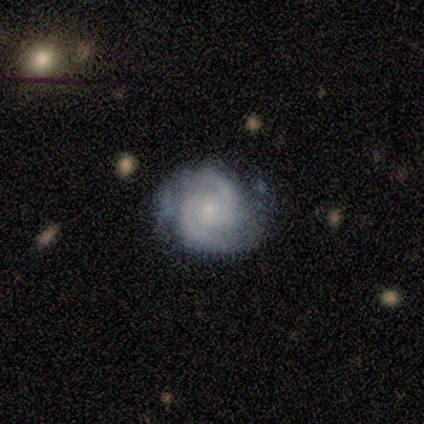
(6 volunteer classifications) smooth_or_featured: featured or disk (p=0.83) [alt: smooth p=0.17]
disk_edge_on: no (p=1.00)
bar: weak (p=0.60) [alt: no p=0.40]
has_spiral_arms: yes (p=1.00)
spiral_winding: tight (p=0.60) [alt: medium p=0.40]
spiral_arm_count: 2 (p=1.00)
bulge_size: small (p=0.60) [alt: moderate p=0.40]
merging: none (p=0.83) [alt: minor disturbance p=0.17]